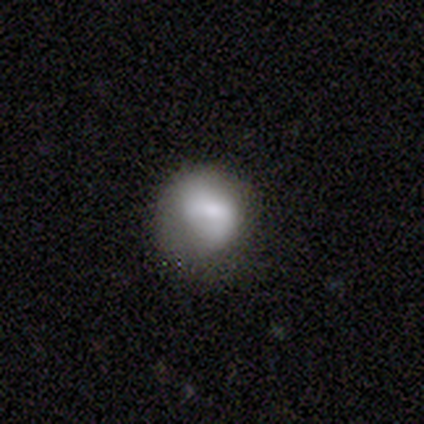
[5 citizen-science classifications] Smooth or featured: smooth — 60% (featured or disk — 20%)
How rounded: in between — 67% (round — 33%)
Merging: minor disturbance — 50% (none — 25%)